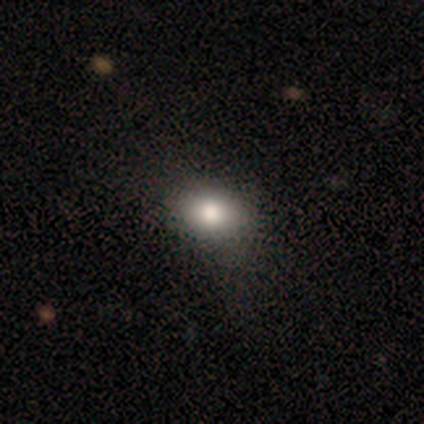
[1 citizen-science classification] Consensus on every question: smooth or featured — smooth (100%); how rounded — in between (100%); merging — minor disturbance (100%).